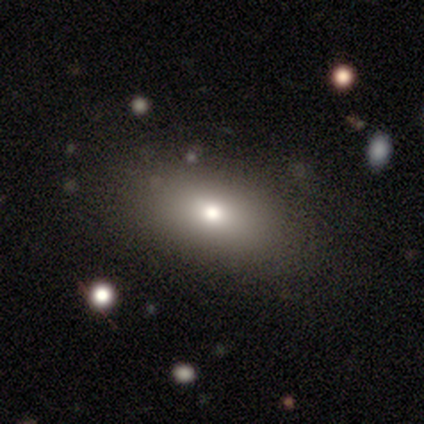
smooth 77%, star or artifact 13%, featured or disk 10%. Down the decision tree: how rounded — in between (80%); merging — none (82%).